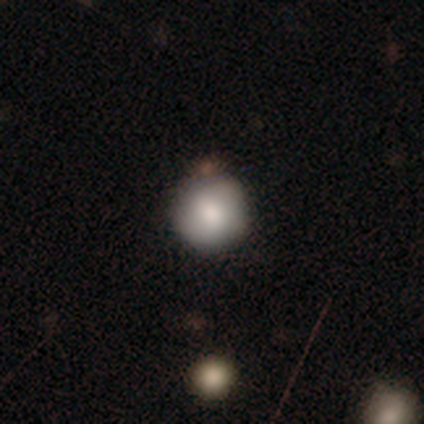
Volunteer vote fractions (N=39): Smooth or featured? 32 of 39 (82%) said smooth. How rounded? 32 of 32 (100%) said round. Merging? 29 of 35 (83%) said none.